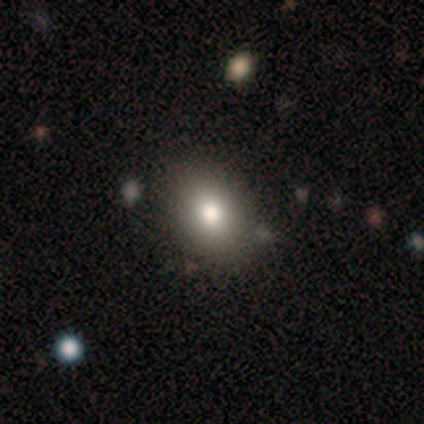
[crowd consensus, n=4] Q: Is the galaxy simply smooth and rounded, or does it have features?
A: smooth — 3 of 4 (75%).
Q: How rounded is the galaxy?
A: in between — 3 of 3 (100%).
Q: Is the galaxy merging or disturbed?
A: none — 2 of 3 (67%).